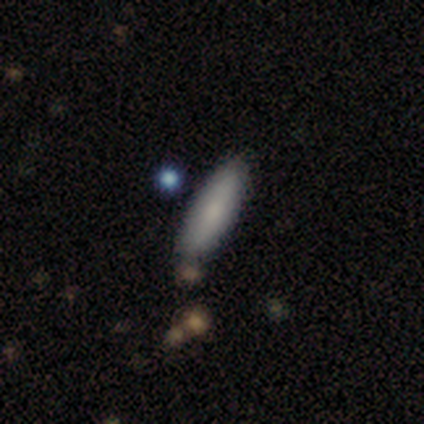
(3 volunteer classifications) Smooth or featured: smooth — 100%
How rounded: cigar-shaped — 100%
Merging: none — 100%